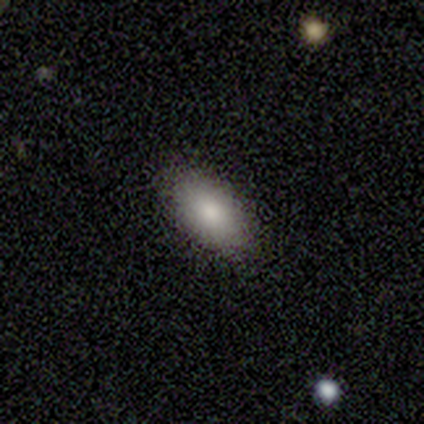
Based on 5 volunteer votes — A smooth galaxy with no disk features (40%, tied with star or artifact) that is in between round and cigar-shaped (100%). Merging: none (100%).